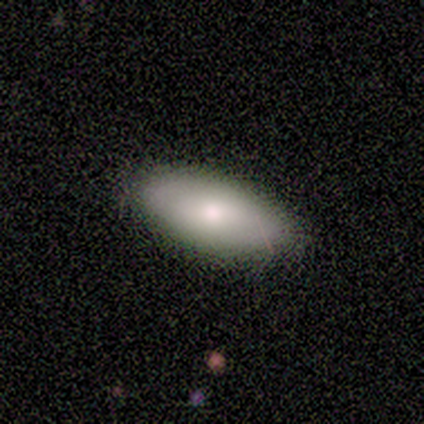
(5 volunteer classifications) Smooth or featured? 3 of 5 (60%) said featured or disk. Edge-on disk? 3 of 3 (100%) said no. Bar? 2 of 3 (67%) said no. Spiral arms? 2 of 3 (67%) said no. Bulge size? 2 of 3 (67%) said small. Merging? 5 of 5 (100%) said none.